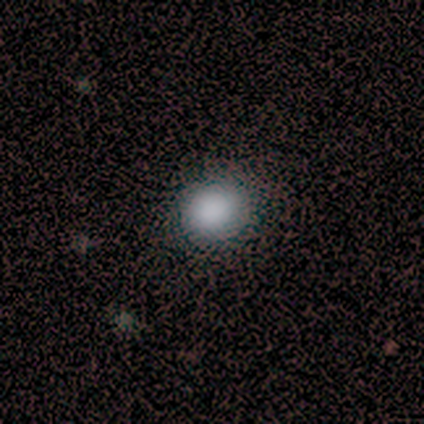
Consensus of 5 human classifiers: Morphology: type=smooth (80%); roundness=round (50%); merging=none (75%).